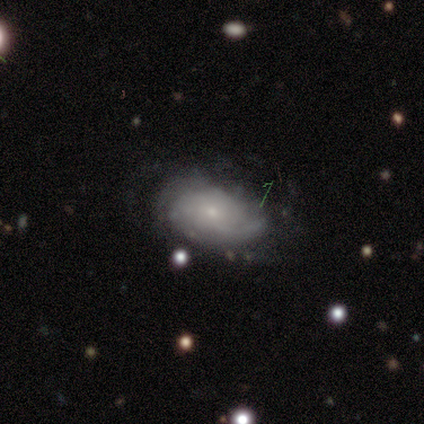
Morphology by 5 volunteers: type=featured or disk (100%); edge-on=no (100%); bar=no (80%); spiral arms=yes (80%); winding=medium (50%, tied with loose); arm count=2 (50%); bulge=small (80%); merging=none (40%, tied with major disturbance).